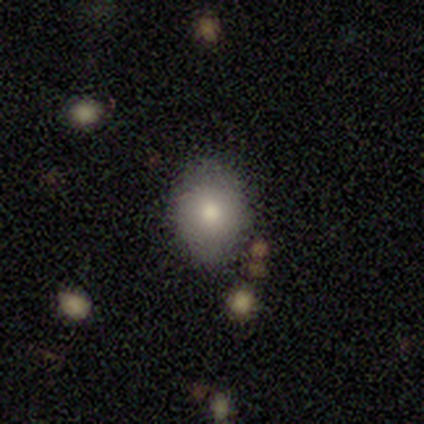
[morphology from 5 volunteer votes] smooth 80%, featured or disk 20%, star or artifact 0%. Down the decision tree: how rounded — in between (75%); merging — none (100%).